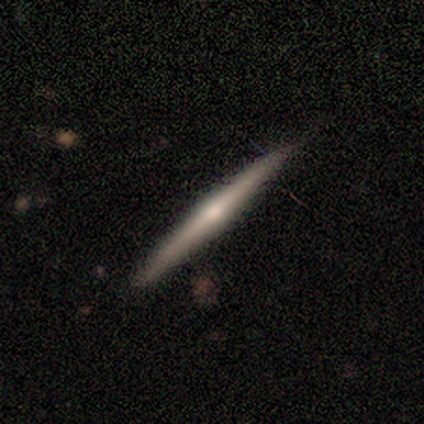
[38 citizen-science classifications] smooth-or-featured: featured or disk: 68% | smooth: 32% | star or artifact: 0%
  disk-edge-on: yes: 100% | no: 0%
    edge-on-bulge: rounded: 62% | none: 38% | boxy: 0%
  merging: none: 92% | minor disturbance: 8% | major disturbance: 0% | merger: 0%